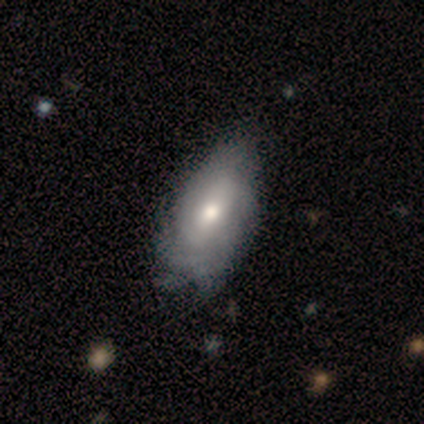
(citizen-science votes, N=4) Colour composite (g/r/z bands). It shows a featured or disk galaxy (100%) with a weak bar (75%), tight (50%) spiral arms (100%) and a moderate central bulge (75%). Merging: none (50%, tied with minor disturbance).